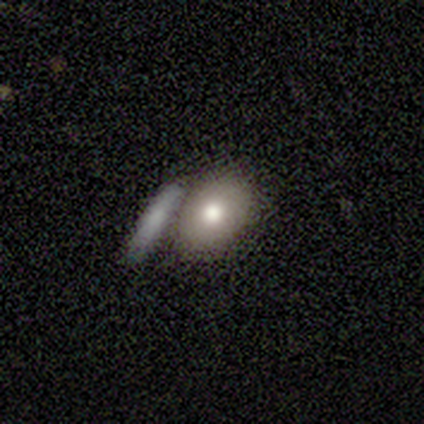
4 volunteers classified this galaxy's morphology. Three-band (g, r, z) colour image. It shows a smooth galaxy with no disk features (100%) that is in between round and cigar-shaped (100%). Merging: none (50%, tied with merger).